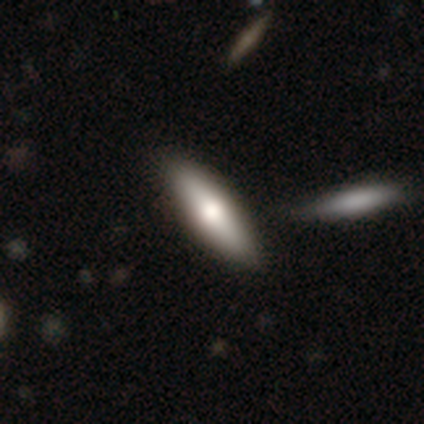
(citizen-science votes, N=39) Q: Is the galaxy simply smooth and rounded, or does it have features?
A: smooth — 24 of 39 (62%).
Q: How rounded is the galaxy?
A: in between — 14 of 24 (58%).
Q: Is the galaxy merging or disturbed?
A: none — 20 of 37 (54%).